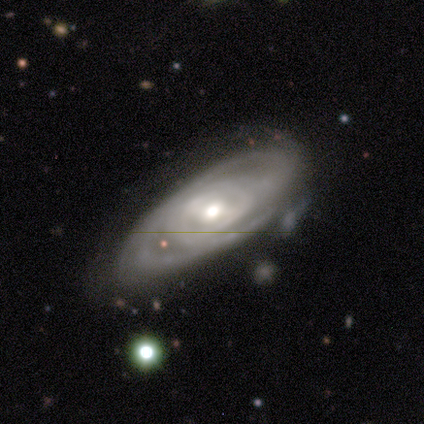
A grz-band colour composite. It shows a featured or disk galaxy (100%) with no bar (100%), 3 (50%, tied with can't tell) tight (100%) spiral arms (100%) and a moderate central bulge (100%). Merging: none (100%).